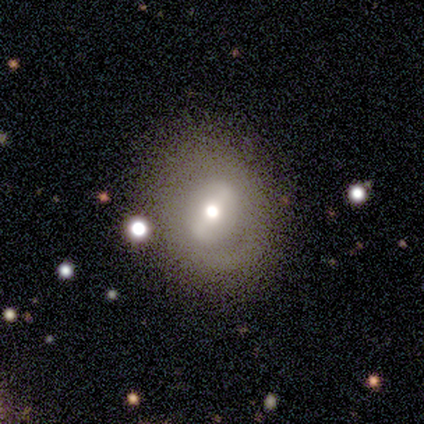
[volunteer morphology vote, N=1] Smooth or featured?
  - featured or disk: 100% *
  - smooth: 0%
  - star or artifact: 0%
Edge-on disk?
  - no: 100% *
  - yes: 0%
Bar?
  - strong: 100% *
  - weak: 0%
  - no: 0%
Spiral arms?
  - no: 100% *
  - yes: 0%
Bulge size?
  - moderate: 100% *
  - dominant: 0%
  - large: 0%
  - small: 0%
  - none: 0%
Merging?
  - none: 100% *
  - minor disturbance: 0%
  - major disturbance: 0%
  - merger: 0%